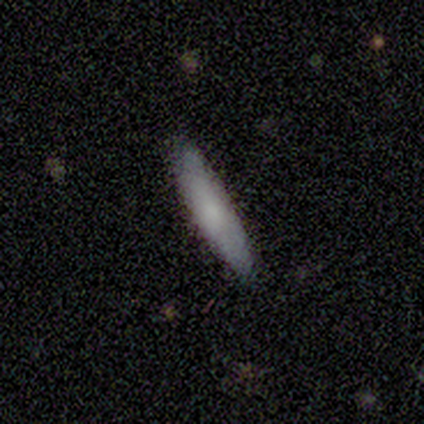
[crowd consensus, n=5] Volunteers were most divided on "smooth or featured": smooth: 80%, featured or disk: 20%, star or artifact: 0%. More confident: how rounded — cigar-shaped (100%); merging — none (80%).